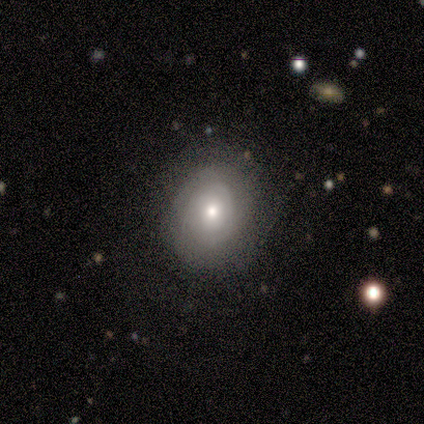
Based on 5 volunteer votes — A smooth galaxy with no disk features (60%) that is round (67%). Merging: none (100%).